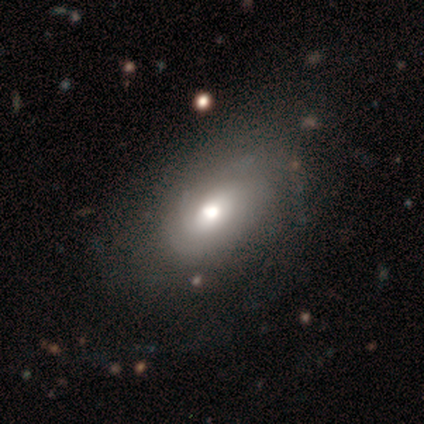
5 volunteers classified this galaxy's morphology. A featured or disk galaxy (80%) with no bar (75%), tight (100%) spiral arms (100%) and a moderate central bulge (75%). Merging: minor disturbance (60%).